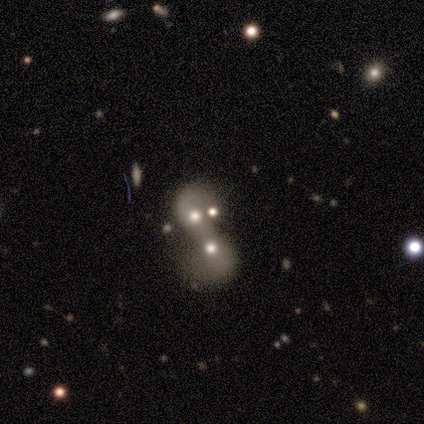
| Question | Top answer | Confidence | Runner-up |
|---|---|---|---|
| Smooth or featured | featured or disk | 60% | star or artifact (40%) |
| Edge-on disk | no | 100% | — |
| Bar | no | 100% | — |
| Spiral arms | no | 67% | yes (33%) |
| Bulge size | moderate | 67% | none (33%) |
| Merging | none | 33% | tied: major disturbance (33%), merger (33%) |